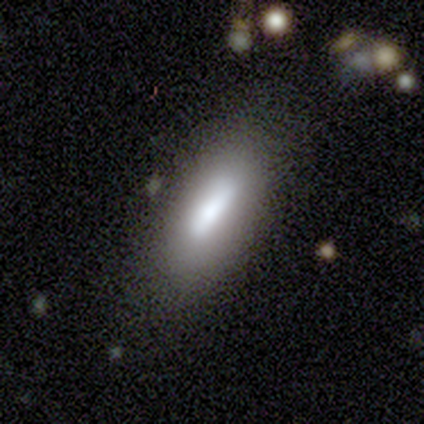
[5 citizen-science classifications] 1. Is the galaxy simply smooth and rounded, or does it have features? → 100% smooth, 0% featured or disk, 0% star or artifact.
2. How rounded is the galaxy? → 100% in between, 0% round, 0% cigar-shaped.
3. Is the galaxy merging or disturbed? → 80% none, 20% minor disturbance, 0% major disturbance, 0% merger.